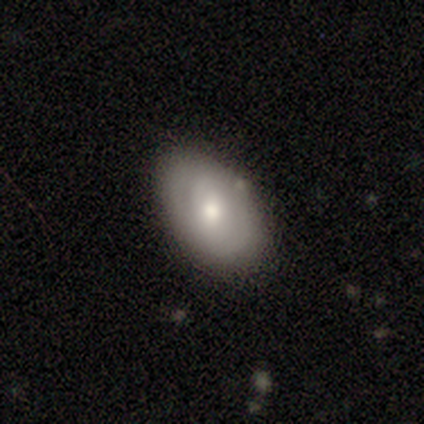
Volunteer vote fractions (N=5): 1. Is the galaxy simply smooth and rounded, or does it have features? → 80% smooth, 20% featured or disk, 0% star or artifact.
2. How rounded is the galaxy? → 100% in between, 0% round, 0% cigar-shaped.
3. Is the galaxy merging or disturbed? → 100% none, 0% minor disturbance, 0% major disturbance, 0% merger.